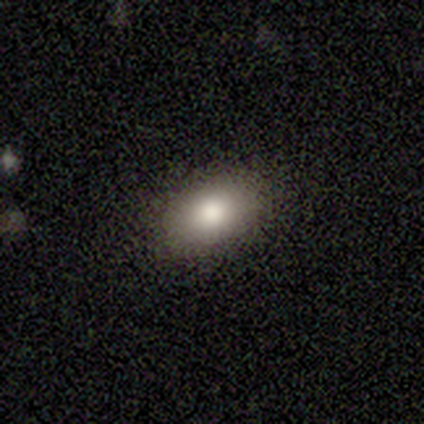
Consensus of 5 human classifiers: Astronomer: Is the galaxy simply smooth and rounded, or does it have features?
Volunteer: smooth — 80%.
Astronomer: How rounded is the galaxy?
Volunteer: in between — 100%.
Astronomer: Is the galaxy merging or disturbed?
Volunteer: none — 100%.